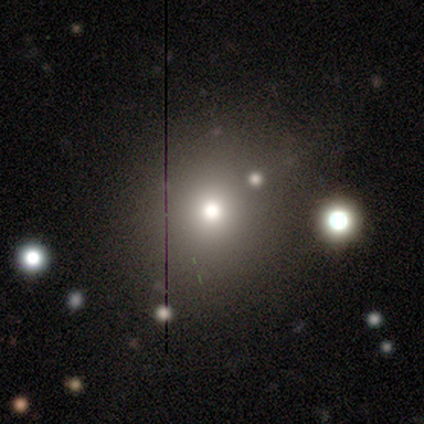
A smooth galaxy with no disk features (63%) that is round (95%). Merging: none (87%).